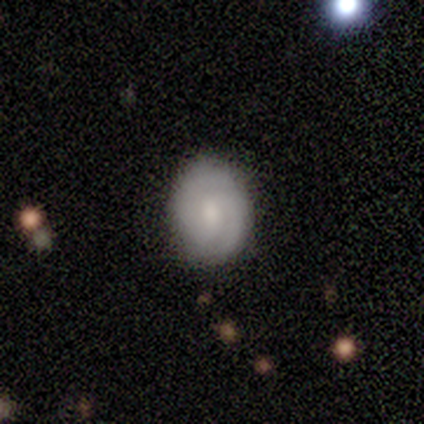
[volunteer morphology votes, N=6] A smooth galaxy with no disk features (67%) that is round (50%, tied with in between). Merging: none (100%).